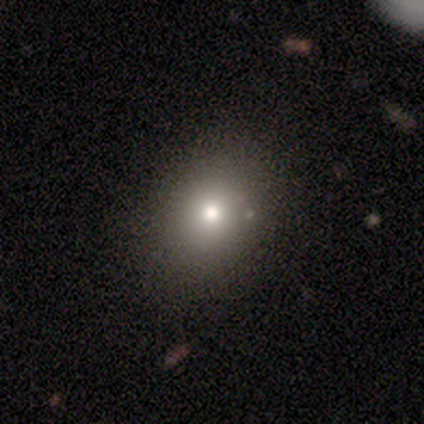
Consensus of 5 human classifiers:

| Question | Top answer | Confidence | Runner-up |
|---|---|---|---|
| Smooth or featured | smooth | 80% | star or artifact (20%) |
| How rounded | round | 100% | — |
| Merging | none | 100% | — |